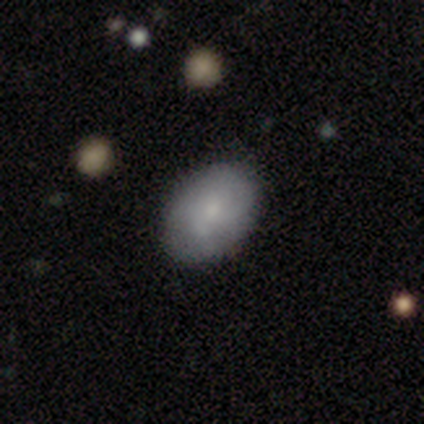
Overall: smooth (56%; featured or disk 41%). How rounded: in between (73%). Merging: none (58%).